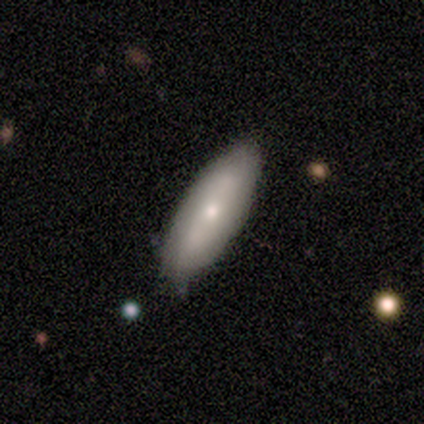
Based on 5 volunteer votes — Smooth or featured?
  - smooth: 100% *
  - featured or disk: 0%
  - star or artifact: 0%
How rounded?
  - in between: 80% *
  - cigar-shaped: 20%
  - round: 0%
Merging?
  - none: 80% *
  - minor disturbance: 20%
  - major disturbance: 0%
  - merger: 0%